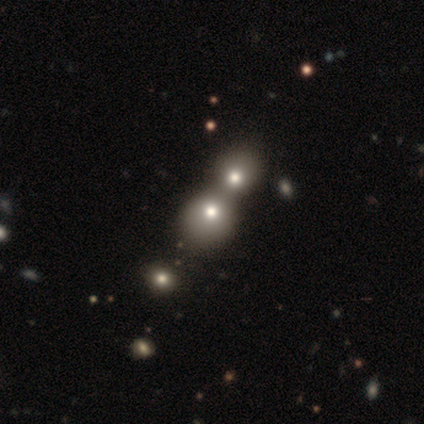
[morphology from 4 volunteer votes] Q: Smooth or featured?
A: smooth (50%); tied with: featured or disk (50%)
Q: How rounded?
A: round (100%)
Q: Merging?
A: merger (75%); runner-up: none (25%)